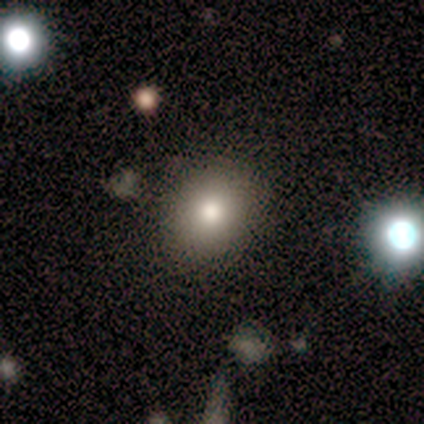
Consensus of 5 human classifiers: smooth_or_featured: smooth (p=0.40) [tied with: star or artifact p=0.40]
how_rounded: round (p=1.00)
merging: none (p=1.00)